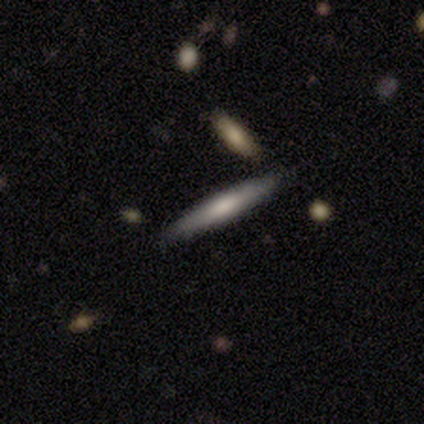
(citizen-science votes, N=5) A smooth galaxy with no disk features (100%) that is cigar-shaped (100%). Merging: none (80%).